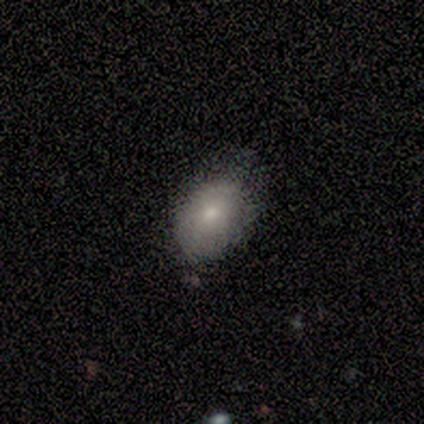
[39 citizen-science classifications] smooth 82%, featured or disk 15%, star or artifact 3%. Down the decision tree: how rounded — in between (88%); merging — none (47%).